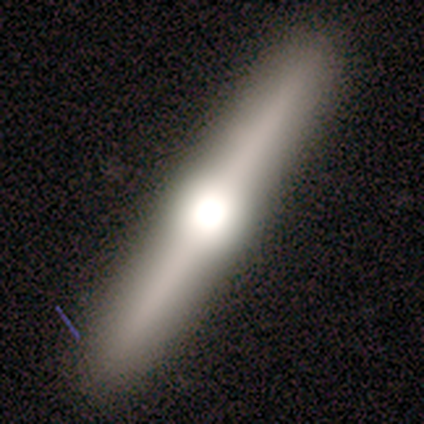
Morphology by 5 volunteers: Q: Smooth or featured?
A: smooth (40%); tied with: featured or disk (40%)
Q: How rounded?
A: cigar-shaped (100%)
Q: Merging?
A: none (100%)